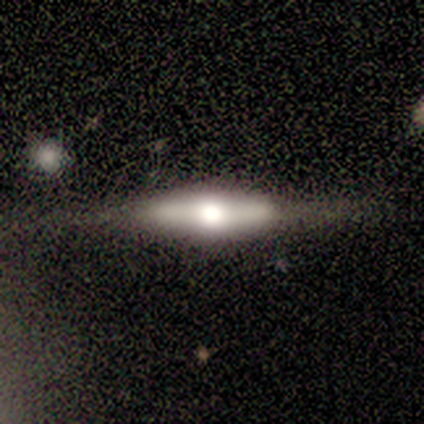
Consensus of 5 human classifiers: A featured or disk galaxy (100%) viewed edge-on (100%) with a rounded central bulge (60%).

Vote fractions:
- Smooth or featured? featured or disk: 100% / smooth: 0% / star or artifact: 0%
- Edge-on disk? yes: 100% / no: 0%
- Edge-on bulge? rounded: 60% / boxy: 40% / none: 0%
- Merging? none: 100% / minor disturbance: 0% / major disturbance: 0% / merger: 0%